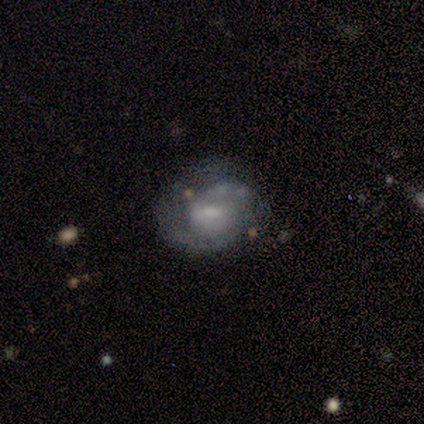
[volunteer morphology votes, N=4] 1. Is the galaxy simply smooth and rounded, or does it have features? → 100% featured or disk, 0% smooth, 0% star or artifact.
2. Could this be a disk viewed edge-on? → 100% no, 0% yes.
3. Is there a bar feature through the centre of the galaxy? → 75% weak, 25% no, 0% strong.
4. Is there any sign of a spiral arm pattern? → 100% yes, 0% no.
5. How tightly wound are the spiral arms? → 100% tight, 0% medium, 0% loose.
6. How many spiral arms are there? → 100% 2, 0% 1, 0% 3, 0% 4, 0% more than 4, 0% can't tell.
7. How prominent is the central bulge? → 25% large (tied), 25% moderate (tied), 25% small (tied), 25% none (tied), 0% dominant.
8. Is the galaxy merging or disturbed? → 50% none, 25% minor disturbance, 25% major disturbance, 0% merger.